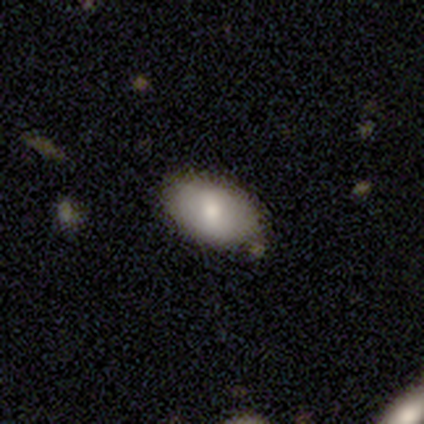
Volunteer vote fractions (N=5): Overall: smooth (40%, tied with featured or disk). How rounded: in between (100%). Merging: none (100%).